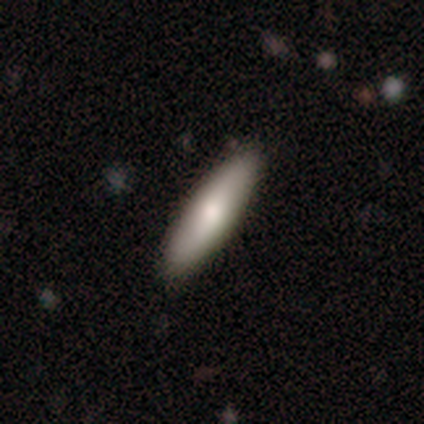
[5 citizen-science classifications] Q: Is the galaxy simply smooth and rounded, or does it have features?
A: smooth — 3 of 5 (60%).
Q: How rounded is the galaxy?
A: cigar-shaped — 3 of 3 (100%).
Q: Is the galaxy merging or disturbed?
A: none — 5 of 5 (100%).